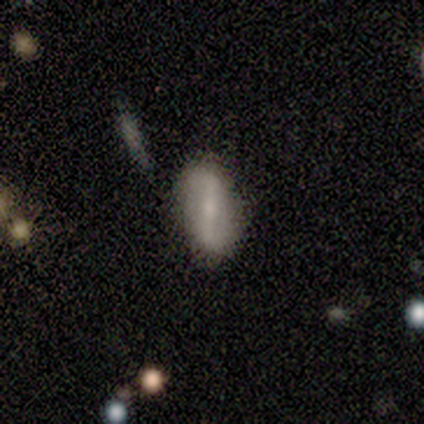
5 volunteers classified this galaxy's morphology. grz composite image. It shows a smooth galaxy with no disk features (60%) that is in between round and cigar-shaped (100%). Merging: none (100%).